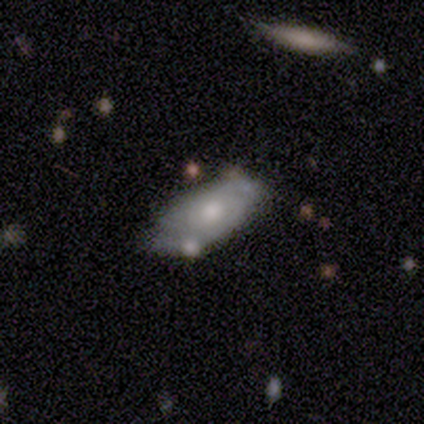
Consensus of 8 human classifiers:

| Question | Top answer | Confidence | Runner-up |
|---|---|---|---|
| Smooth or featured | smooth | 75% | featured or disk (25%) |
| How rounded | in between | 83% | cigar-shaped (17%) |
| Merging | none | 50% | tied: minor disturbance (50%) |